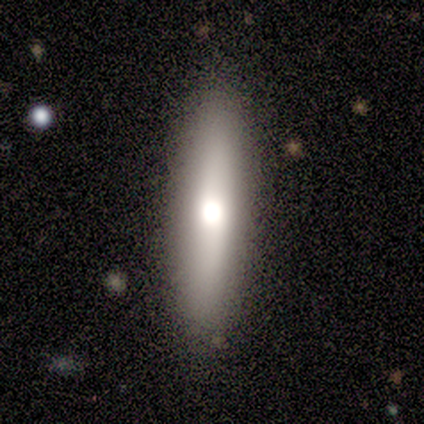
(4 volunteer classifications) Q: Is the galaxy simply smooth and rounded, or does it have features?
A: smooth — 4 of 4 (100%).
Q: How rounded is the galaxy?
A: in between — 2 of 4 (50%, tied with cigar-shaped).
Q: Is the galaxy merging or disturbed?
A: none — 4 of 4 (100%).